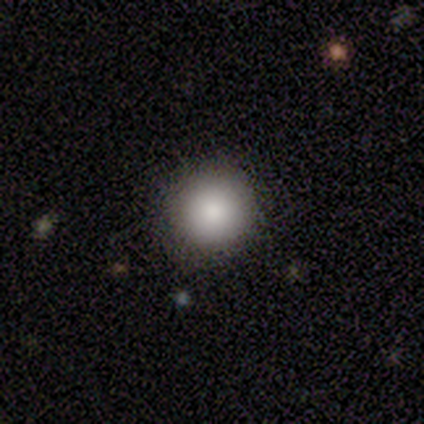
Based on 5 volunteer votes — Morphology: type=smooth (100%); roundness=round (100%); merging=none (100%).